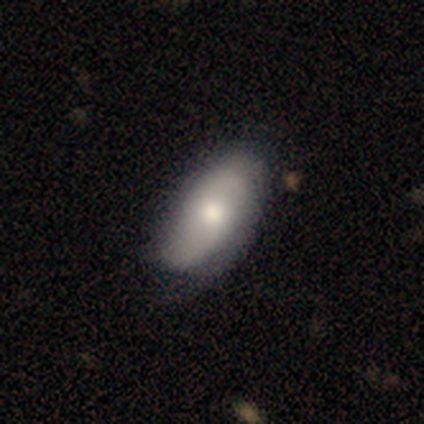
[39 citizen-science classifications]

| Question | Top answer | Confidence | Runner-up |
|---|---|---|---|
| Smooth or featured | smooth | 51% | featured or disk (46%) |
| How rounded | in between | 90% | cigar-shaped (10%) |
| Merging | none | 79% | minor disturbance (16%) |